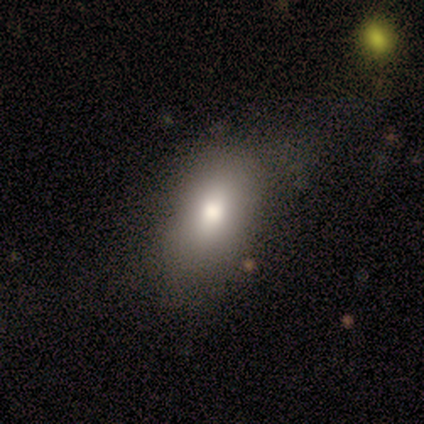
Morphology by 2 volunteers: Q: Smooth or featured?
A: smooth (100%)
Q: How rounded?
A: in between (100%)
Q: Merging?
A: major disturbance (100%)